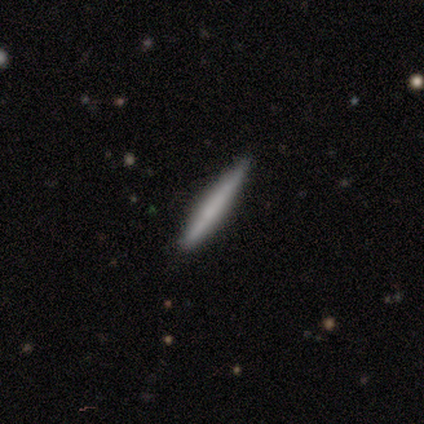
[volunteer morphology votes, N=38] Smooth or featured? 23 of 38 (61%) said smooth. How rounded? 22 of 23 (96%) said cigar-shaped. Merging? 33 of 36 (92%) said none.